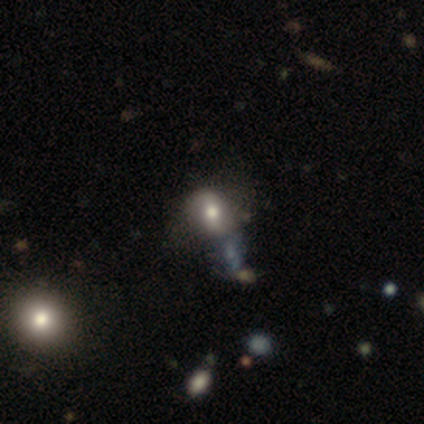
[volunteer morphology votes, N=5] Volunteers were most divided on "smooth or featured": smooth: 60%, featured or disk: 40%, star or artifact: 0%. More confident: merging — none (100%); how rounded — round (67%).